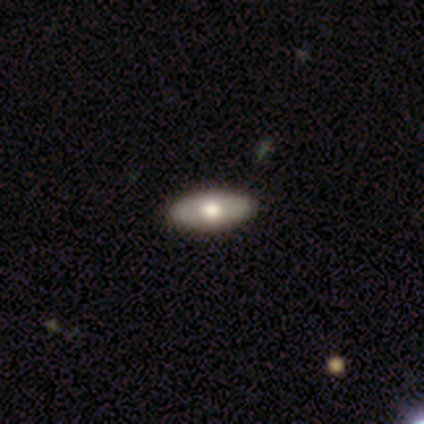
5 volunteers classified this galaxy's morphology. Q: Smooth or featured?
A: featured or disk (60%); runner-up: smooth (40%)
Q: Edge-on disk?
A: no (100%)
Q: Bar?
A: no (67%); runner-up: weak (33%)
Q: Spiral arms?
A: no (100%)
Q: Bulge size?
A: moderate (100%)
Q: Merging?
A: none (80%); runner-up: minor disturbance (20%)